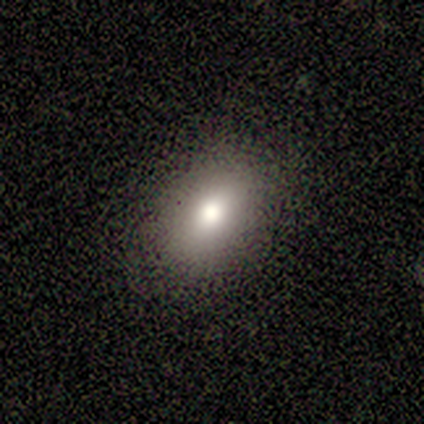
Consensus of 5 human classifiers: Smooth or featured: smooth — 60% (star or artifact — 40%)
How rounded: in between — 100%
Merging: none — 100%